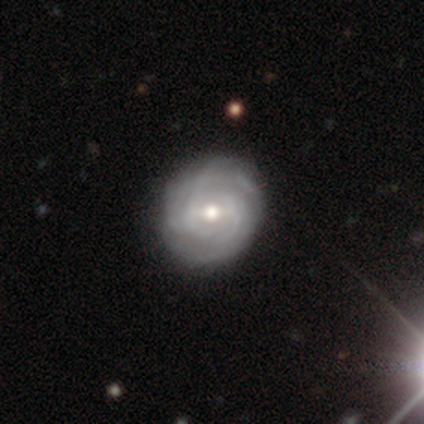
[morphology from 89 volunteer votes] Q: Smooth or featured?
A: featured or disk (83%); runner-up: smooth (16%)
Q: Edge-on disk?
A: no (96%); runner-up: yes (4%)
Q: Bar?
A: no (55%); runner-up: weak (37%)
Q: Spiral arms?
A: yes (96%); runner-up: no (4%)
Q: Spiral winding?
A: tight (79%); runner-up: medium (18%)
Q: Spiral arm count?
A: can't tell (46%); runner-up: 3 (18%)
Q: Bulge size?
A: moderate (70%); runner-up: small (28%)
Q: Merging?
A: none (88%); runner-up: minor disturbance (10%)